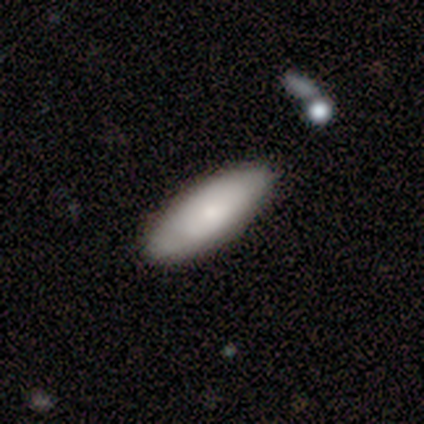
A smooth galaxy with no disk features (67%) that is in between round and cigar-shaped (75%).

Vote fractions:
- Smooth or featured? smooth: 67% / featured or disk: 25% / star or artifact: 8%
- How rounded? in between: 75% / cigar-shaped: 25% / round: 0%
- Merging? none: 91% / major disturbance: 9% / minor disturbance: 0% / merger: 0%